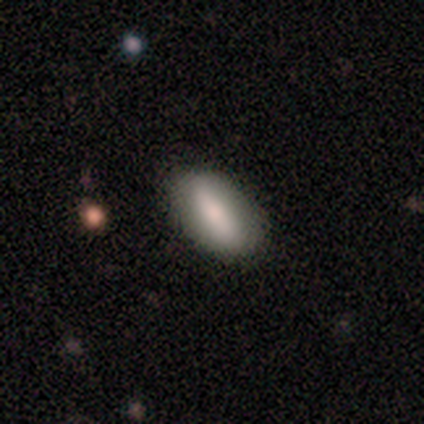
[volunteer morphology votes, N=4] This is clearly a smooth galaxy (100%). How rounded: clearly in between (100%). Merging: clearly none (100%).